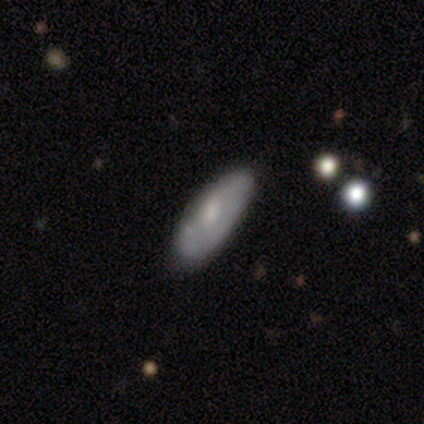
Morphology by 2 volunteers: This is possibly a smooth galaxy (50%, tied with featured or disk). How rounded: clearly in between (100%). Merging: possibly none (50%, tied with merger).